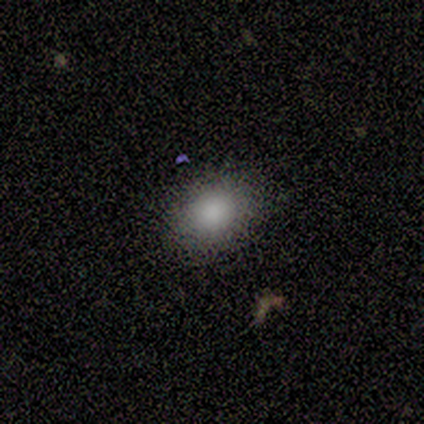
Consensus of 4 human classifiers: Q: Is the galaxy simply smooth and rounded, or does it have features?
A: smooth — 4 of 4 (100%).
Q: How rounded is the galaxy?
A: round — 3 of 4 (75%).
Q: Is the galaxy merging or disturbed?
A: none — 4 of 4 (100%).